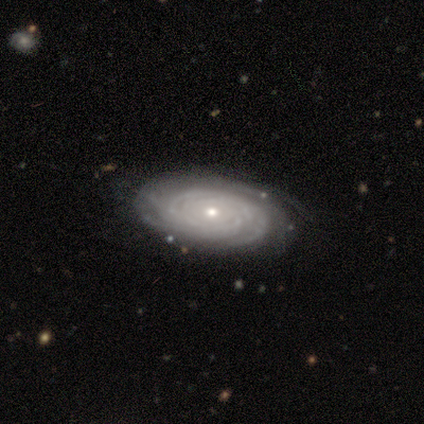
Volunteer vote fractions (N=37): Smooth or featured? 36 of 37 (97%) said featured or disk. Edge-on disk? 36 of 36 (100%) said no. Bar? 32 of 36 (89%) said no. Spiral arms? 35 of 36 (97%) said yes. Spiral winding? 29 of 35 (83%) said tight. Spiral arm count? 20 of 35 (57%) said can't tell. Bulge size? 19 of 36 (53%) said small. Merging? 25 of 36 (69%) said none.